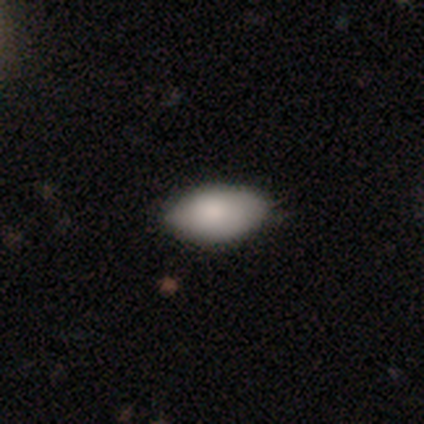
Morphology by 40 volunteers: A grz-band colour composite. It shows a smooth galaxy with no disk features (85%) that is in between round and cigar-shaped (100%). Merging: none (55%).